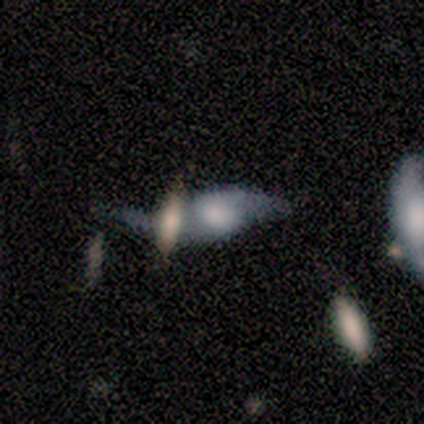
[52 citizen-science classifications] Smooth or featured?
  - featured or disk: 71% *
  - smooth: 23%
  - star or artifact: 6%
Edge-on disk?
  - no: 78% *
  - yes: 22%
Bar?
  - no: 66% *
  - weak: 31%
  - strong: 3%
Spiral arms?
  - yes: 66% *
  - no: 34%
Spiral winding?
  - loose: 84% *
  - medium: 16%
  - tight: 0%
Spiral arm count?
  - 2: 100% *
  - 1: 0%
  - 3: 0%
  - 4: 0%
  - more than 4: 0%
  - can't tell: 0%
Bulge size?
  - large: 38% *
  - moderate: 28%
  - none: 17%
  - small: 10%
  - dominant: 7%
Merging?
  - merger: 45% *
  - none: 24%
  - minor disturbance: 18%
  - major disturbance: 12%